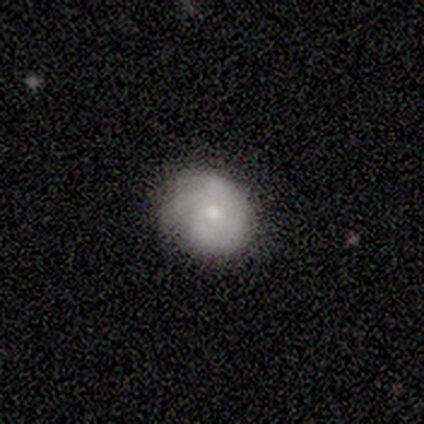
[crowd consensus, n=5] Q: Smooth or featured?
A: featured or disk (60%); runner-up: smooth (40%)
Q: Edge-on disk?
A: no (100%)
Q: Bar?
A: no (67%); runner-up: weak (33%)
Q: Spiral arms?
A: yes (100%)
Q: Spiral winding?
A: tight (100%)
Q: Spiral arm count?
A: 2 (67%); runner-up: 3 (33%)
Q: Bulge size?
A: small (67%); runner-up: moderate (33%)
Q: Merging?
A: none (60%); runner-up: minor disturbance (20%)